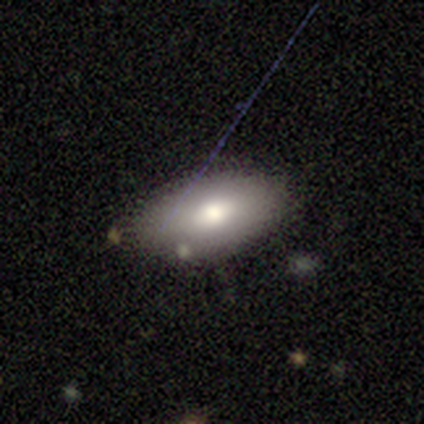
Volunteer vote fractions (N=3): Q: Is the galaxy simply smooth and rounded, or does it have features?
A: featured or disk — 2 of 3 (67%).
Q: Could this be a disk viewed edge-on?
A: no — 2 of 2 (100%).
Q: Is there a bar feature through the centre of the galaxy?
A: weak — 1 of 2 (50%, tied with no).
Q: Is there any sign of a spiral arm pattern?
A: no — 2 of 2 (100%).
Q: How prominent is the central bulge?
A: large — 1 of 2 (50%, tied with moderate).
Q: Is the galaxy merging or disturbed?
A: minor disturbance — 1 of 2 (50%, tied with merger).